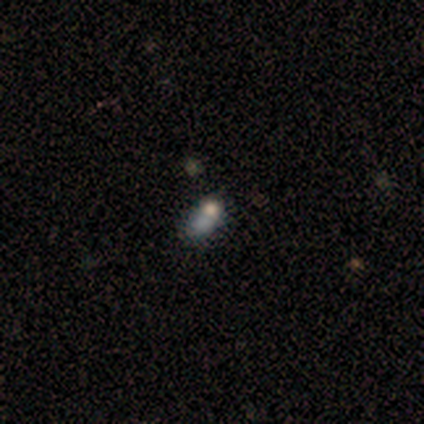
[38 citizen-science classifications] smooth-or-featured: smooth: 58% | featured or disk: 21% | star or artifact: 21%
  how-rounded: in between: 77% | round: 18% | cigar-shaped: 5%
  merging: none: 43% | merger: 33% | minor disturbance: 17% | major disturbance: 7%